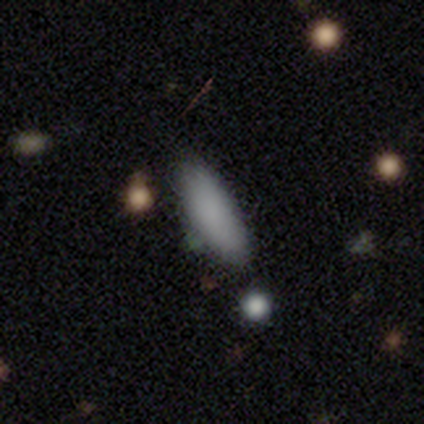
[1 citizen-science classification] smooth-or-featured: smooth: 100% | featured or disk: 0% | star or artifact: 0%
  how-rounded: in between: 100% | round: 0% | cigar-shaped: 0%
  merging: none: 100% | minor disturbance: 0% | major disturbance: 0% | merger: 0%